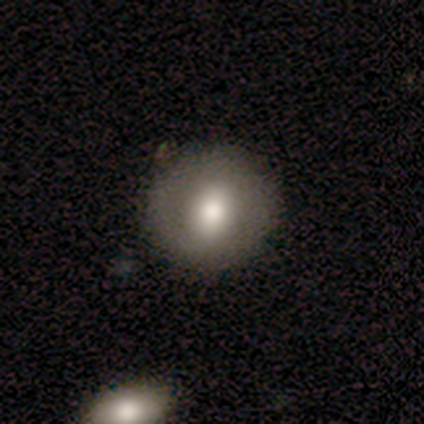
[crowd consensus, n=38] Smooth or featured?
  - smooth: 53% *
  - featured or disk: 39%
  - star or artifact: 8%
How rounded?
  - round: 100% *
  - in between: 0%
  - cigar-shaped: 0%
Merging?
  - none: 86% *
  - minor disturbance: 14%
  - major disturbance: 0%
  - merger: 0%